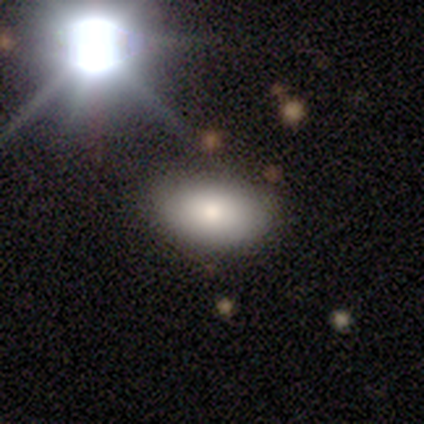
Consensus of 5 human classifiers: Smooth or featured: featured or disk — 60% (smooth — 20%)
Edge-on disk: no — 67% (yes — 33%)
Bar: no — 100%
Spiral arms: no — 100%
Bulge size: moderate — 50% (tied with small — 50%)
Merging: none — 75% (minor disturbance — 25%)